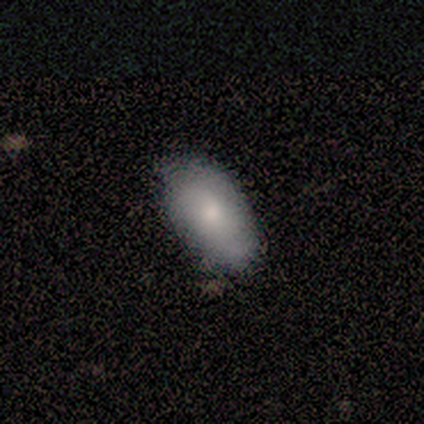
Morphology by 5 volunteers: Volunteers were most divided on "smooth or featured": smooth: 60%, featured or disk: 20%, star or artifact: 20%. More confident: how rounded — in between (100%); merging — none (75%).